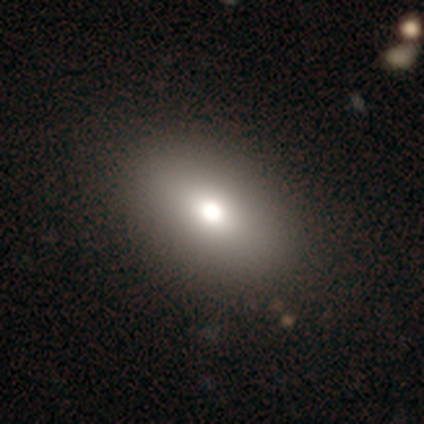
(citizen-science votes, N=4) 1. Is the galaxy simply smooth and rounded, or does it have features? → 100% smooth, 0% featured or disk, 0% star or artifact.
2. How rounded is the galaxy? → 100% in between, 0% round, 0% cigar-shaped.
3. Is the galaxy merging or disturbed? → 100% none, 0% minor disturbance, 0% major disturbance, 0% merger.